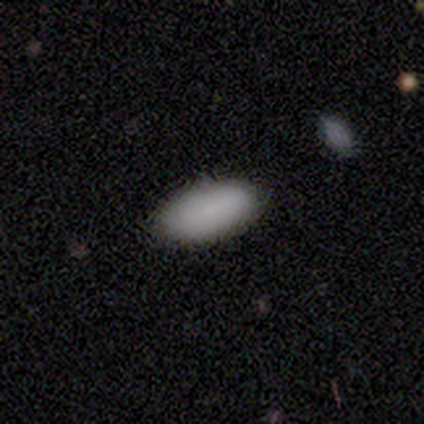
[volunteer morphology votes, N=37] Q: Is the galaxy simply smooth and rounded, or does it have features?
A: smooth — 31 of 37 (84%).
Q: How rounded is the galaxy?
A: in between — 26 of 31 (84%).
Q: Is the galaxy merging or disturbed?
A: none — 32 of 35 (91%).